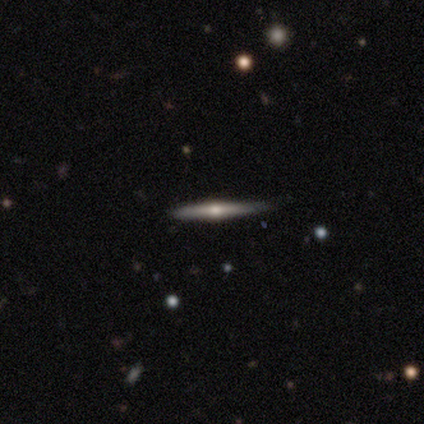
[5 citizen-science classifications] Overall: featured or disk (80%). Edge-on disk: yes (100%). Edge-on bulge: rounded (100%). Merging: none (60%; minor disturbance 40%).